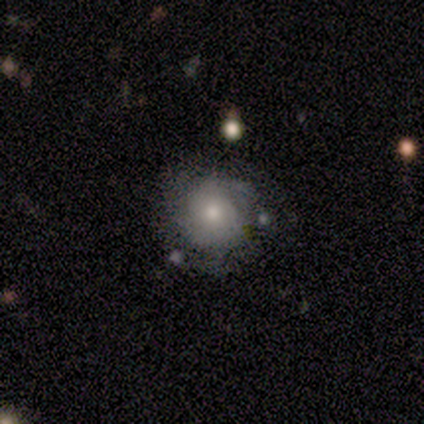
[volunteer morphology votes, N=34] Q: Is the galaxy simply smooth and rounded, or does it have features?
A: smooth — 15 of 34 (44%, tied with featured or disk).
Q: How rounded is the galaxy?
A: round — 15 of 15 (100%).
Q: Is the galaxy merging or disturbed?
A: none — 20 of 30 (67%).